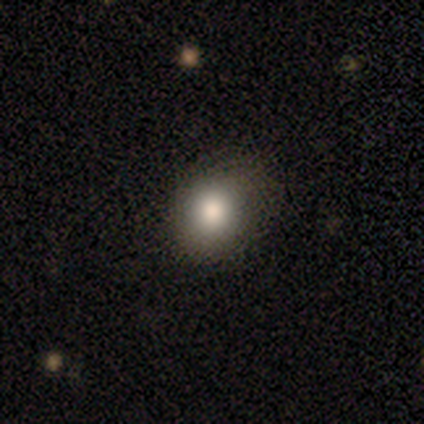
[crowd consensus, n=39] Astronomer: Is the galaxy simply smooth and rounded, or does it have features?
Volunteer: smooth — 79%.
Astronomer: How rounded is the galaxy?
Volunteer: round — 81%.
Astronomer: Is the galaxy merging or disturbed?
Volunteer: none — 84%.